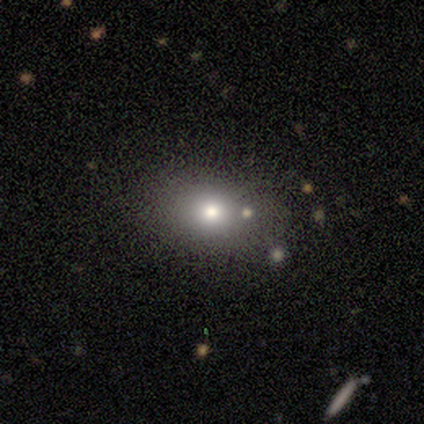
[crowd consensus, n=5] A smooth galaxy with no disk features (40%, tied with featured or disk) that is in between round and cigar-shaped (100%).

Vote fractions:
- Smooth or featured? smooth: 40% (tied) / featured or disk: 40% (tied) / star or artifact: 20%
- How rounded? in between: 100% / round: 0% / cigar-shaped: 0%
- Merging? none: 75% / merger: 25% / minor disturbance: 0% / major disturbance: 0%